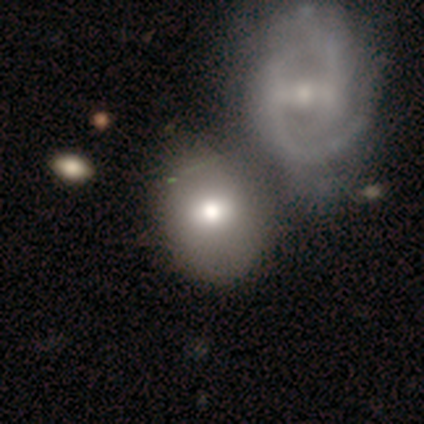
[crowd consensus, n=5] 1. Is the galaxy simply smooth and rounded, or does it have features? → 100% smooth, 0% featured or disk, 0% star or artifact.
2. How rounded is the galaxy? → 80% in between, 20% round, 0% cigar-shaped.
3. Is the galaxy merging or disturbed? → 80% none, 20% minor disturbance, 0% major disturbance, 0% merger.